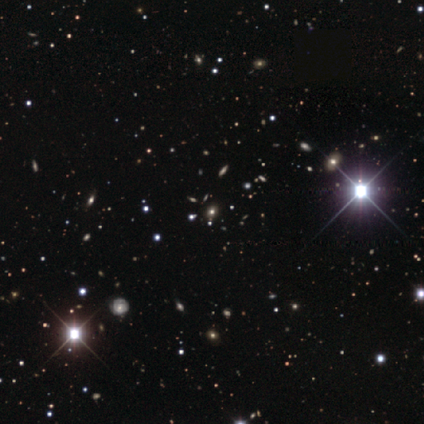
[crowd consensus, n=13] Smooth or featured? 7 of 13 (54%) said star or artifact.